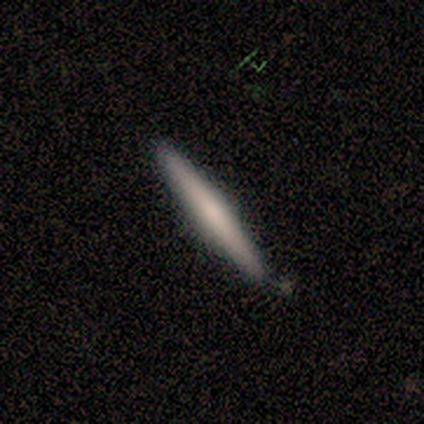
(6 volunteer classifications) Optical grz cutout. It shows a smooth galaxy with no disk features (50%, tied with featured or disk) that is cigar-shaped (100%). Merging: none (83%).